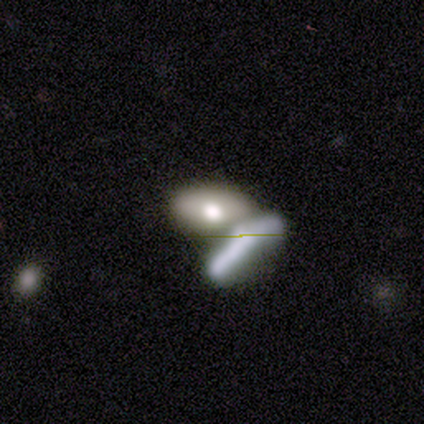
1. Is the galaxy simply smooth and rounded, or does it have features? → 51% smooth, 44% featured or disk, 5% star or artifact.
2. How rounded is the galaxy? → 88% in between, 10% cigar-shaped, 2% round.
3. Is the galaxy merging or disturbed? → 56% merger, 32% none, 6% major disturbance, 5% minor disturbance.